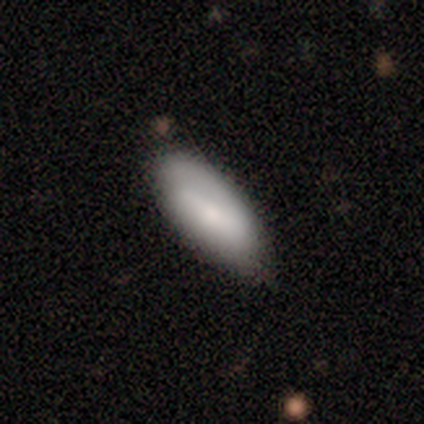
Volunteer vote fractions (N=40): smooth_or_featured: smooth (p=0.75) [alt: featured or disk p=0.17]
how_rounded: in between (p=0.87) [alt: round p=0.07]
merging: none (p=0.81) [alt: minor disturbance p=0.11]